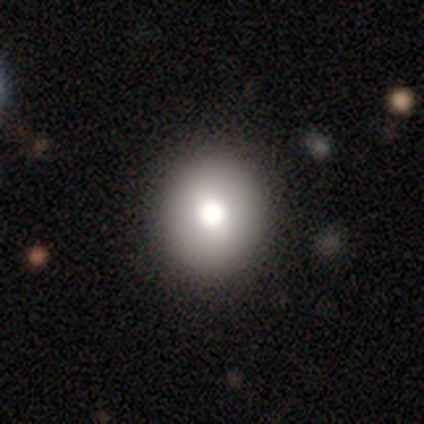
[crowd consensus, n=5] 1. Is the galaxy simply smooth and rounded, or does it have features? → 60% smooth, 20% featured or disk, 20% star or artifact.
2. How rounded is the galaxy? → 67% round, 33% in between, 0% cigar-shaped.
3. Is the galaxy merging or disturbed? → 100% none, 0% minor disturbance, 0% major disturbance, 0% merger.